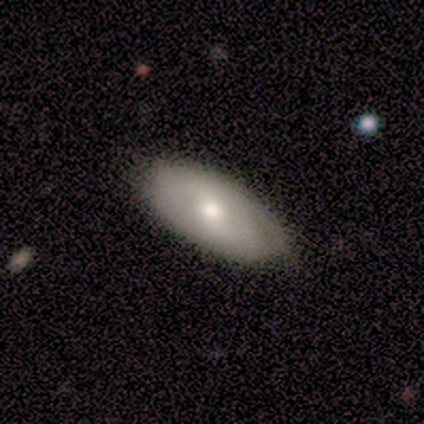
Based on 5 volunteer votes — Smooth or featured? smooth (80%)
How rounded? in between (75%)
Merging? none (60%)